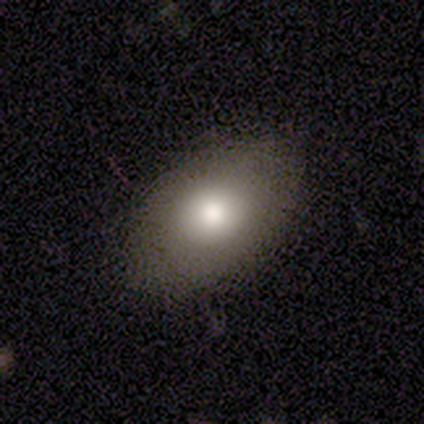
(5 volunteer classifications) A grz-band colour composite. It shows a smooth galaxy with no disk features (60%) that is in between round and cigar-shaped (100%). Merging: none (80%).